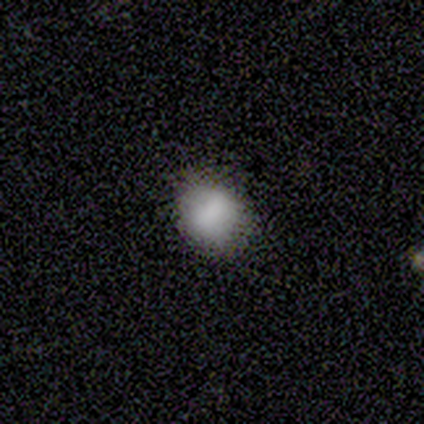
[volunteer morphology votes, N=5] Volunteers were most divided on "how rounded": in between: 60%, round: 40%, cigar-shaped: 0%. More confident: smooth or featured — smooth (100%); merging — none (60%).